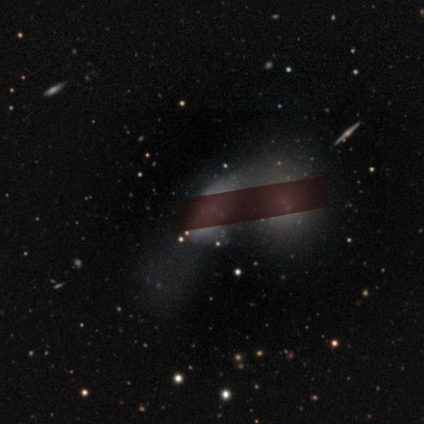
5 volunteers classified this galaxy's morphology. Overall: star or artifact (60%; smooth 20%).